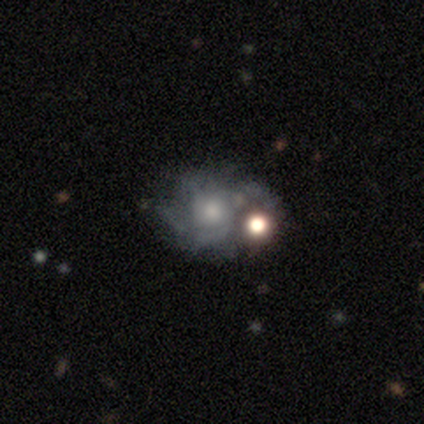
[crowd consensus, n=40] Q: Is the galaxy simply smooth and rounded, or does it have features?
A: featured or disk — 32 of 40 (80%).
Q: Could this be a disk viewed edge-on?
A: no — 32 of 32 (100%).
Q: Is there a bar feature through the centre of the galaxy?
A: no — 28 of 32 (88%).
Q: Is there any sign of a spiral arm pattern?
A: yes — 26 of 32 (81%).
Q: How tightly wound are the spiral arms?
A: tight — 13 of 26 (50%).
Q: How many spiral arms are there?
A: can't tell — 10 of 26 (38%).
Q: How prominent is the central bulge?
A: moderate — 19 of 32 (59%).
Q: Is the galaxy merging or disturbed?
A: none — 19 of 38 (50%).